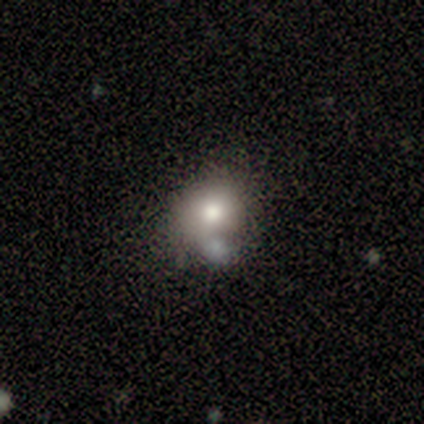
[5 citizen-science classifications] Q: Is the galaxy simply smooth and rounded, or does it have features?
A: smooth — 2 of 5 (40%, tied with star or artifact).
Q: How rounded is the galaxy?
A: round — 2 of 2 (100%).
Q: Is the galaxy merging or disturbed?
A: merger — 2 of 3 (67%).